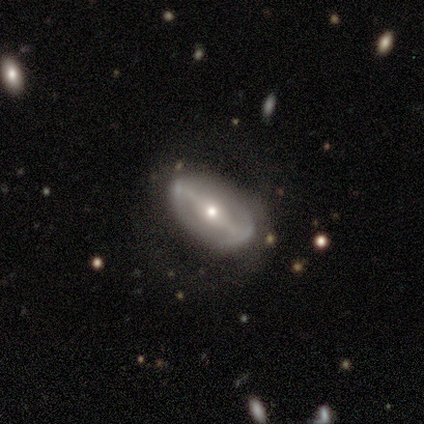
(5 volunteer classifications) smooth-or-featured: featured or disk: 100% | smooth: 0% | star or artifact: 0%
  disk-edge-on: no: 100% | yes: 0%
    bar: strong: 80% | weak: 20% | no: 0%
    has-spiral-arms: no: 100% | yes: 0%
    bulge-size: moderate: 80% | small: 20% | dominant: 0% | large: 0% | none: 0%
  merging: none: 60% | minor disturbance: 20% | major disturbance: 20% | merger: 0%